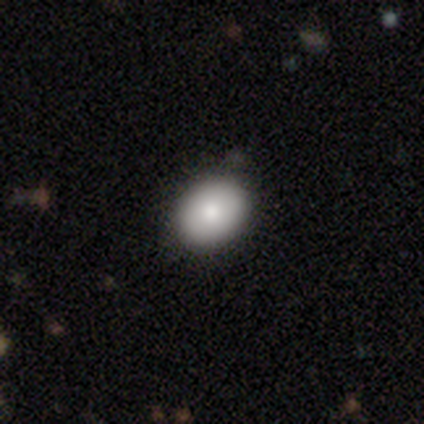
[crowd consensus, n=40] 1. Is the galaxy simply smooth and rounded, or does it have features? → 88% smooth, 10% featured or disk, 2% star or artifact.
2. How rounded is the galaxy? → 74% in between, 26% round, 0% cigar-shaped.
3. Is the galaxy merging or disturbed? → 90% none, 5% minor disturbance, 5% major disturbance, 0% merger.